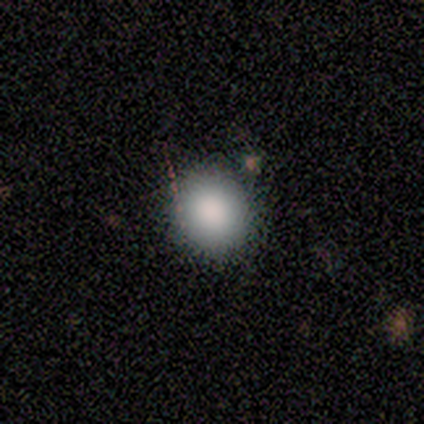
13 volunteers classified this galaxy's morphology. type=smooth (77%); roundness=round (80%); merging=none (91%).